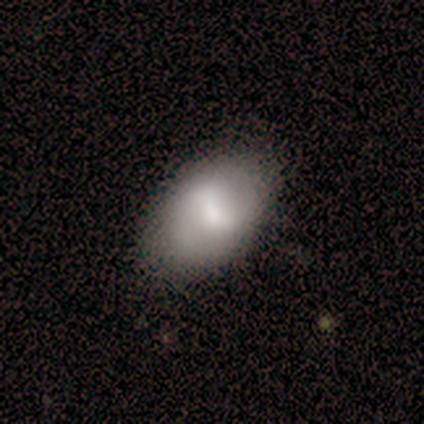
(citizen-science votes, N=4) smooth 75%, featured or disk 25%, star or artifact 0%. Down the decision tree: how rounded — in between (100%); merging — none (100%).